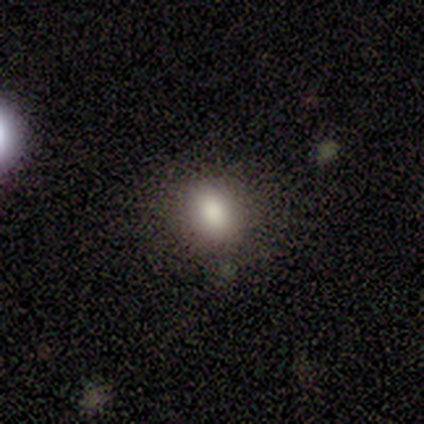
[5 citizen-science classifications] A smooth galaxy with no disk features (80%) that is round (50%, tied with in between). Merging: none (100%).